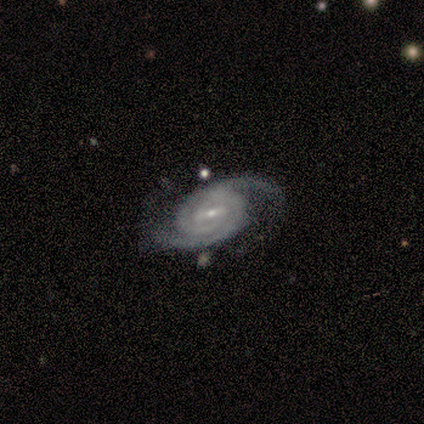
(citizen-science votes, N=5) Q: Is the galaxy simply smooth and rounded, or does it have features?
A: featured or disk — 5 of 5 (100%).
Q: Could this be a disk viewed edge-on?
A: no — 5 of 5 (100%).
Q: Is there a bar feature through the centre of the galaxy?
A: strong — 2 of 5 (40%, tied with weak).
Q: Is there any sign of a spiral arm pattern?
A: yes — 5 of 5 (100%).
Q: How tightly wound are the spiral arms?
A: tight — 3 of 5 (60%).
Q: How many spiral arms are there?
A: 2 — 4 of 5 (80%).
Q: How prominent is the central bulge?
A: small — 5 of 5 (100%).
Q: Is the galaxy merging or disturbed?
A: none — 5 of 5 (100%).